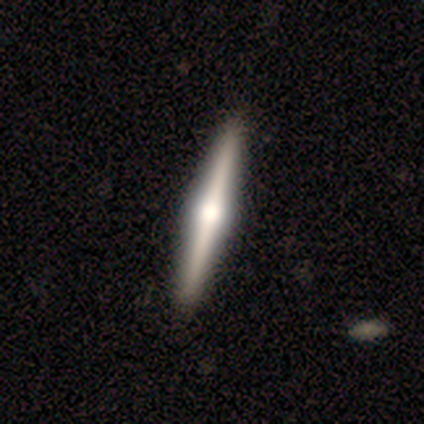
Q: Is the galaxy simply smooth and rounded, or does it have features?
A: featured or disk — 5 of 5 (100%).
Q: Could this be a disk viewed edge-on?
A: yes — 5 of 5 (100%).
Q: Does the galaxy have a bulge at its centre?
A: rounded — 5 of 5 (100%).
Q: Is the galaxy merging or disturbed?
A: none — 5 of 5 (100%).